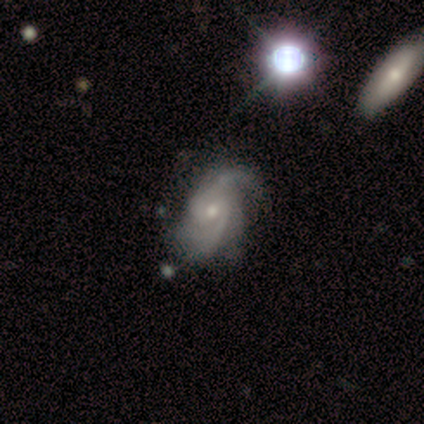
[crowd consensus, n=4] This appears to be a featured or disk galaxy (100%) with a weak bar (50%, tied with no), 2 (100%) medium (75%) spiral arms (100%) and a moderate central bulge (50%). Merging: none (50%).